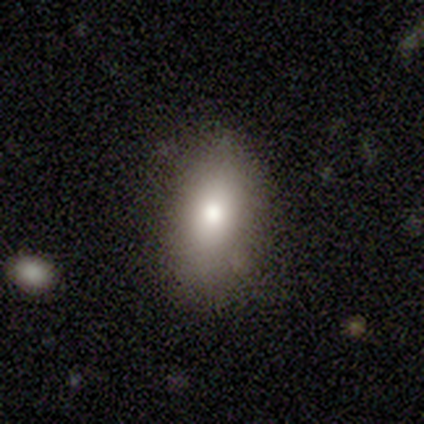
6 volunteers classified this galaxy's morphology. Volunteers were most divided on "merging": none: 80%, minor disturbance: 20%, major disturbance: 0%, merger: 0%. More confident: how rounded — in between (100%); smooth or featured — smooth (83%).